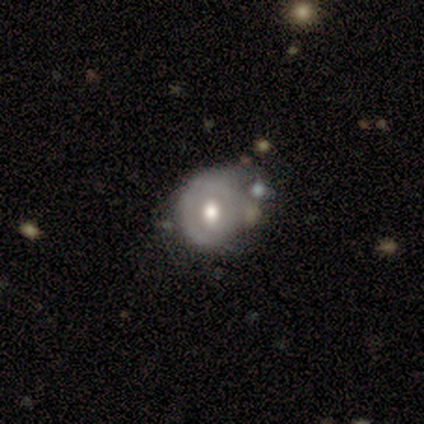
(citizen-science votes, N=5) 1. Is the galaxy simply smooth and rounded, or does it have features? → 60% featured or disk, 40% smooth, 0% star or artifact.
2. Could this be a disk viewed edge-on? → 100% no, 0% yes.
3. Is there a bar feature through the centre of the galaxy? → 100% no, 0% strong, 0% weak.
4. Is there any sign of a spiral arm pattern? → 67% no, 33% yes.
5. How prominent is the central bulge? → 100% moderate, 0% dominant, 0% large, 0% small, 0% none.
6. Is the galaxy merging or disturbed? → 60% none, 20% minor disturbance, 20% major disturbance, 0% merger.